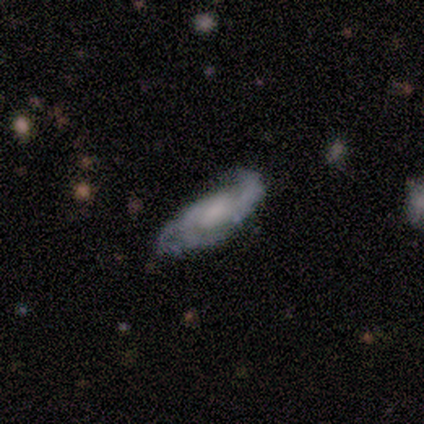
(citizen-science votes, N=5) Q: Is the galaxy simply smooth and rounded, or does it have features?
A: featured or disk — 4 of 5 (80%).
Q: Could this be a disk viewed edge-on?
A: no — 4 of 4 (100%).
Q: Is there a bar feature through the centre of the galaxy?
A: no — 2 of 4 (50%).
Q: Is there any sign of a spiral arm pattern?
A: yes — 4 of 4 (100%).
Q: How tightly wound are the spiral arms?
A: loose — 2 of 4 (50%).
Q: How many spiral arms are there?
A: can't tell — 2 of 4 (50%).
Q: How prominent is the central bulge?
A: small — 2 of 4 (50%, tied with none).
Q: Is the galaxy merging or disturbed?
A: none — 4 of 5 (80%).